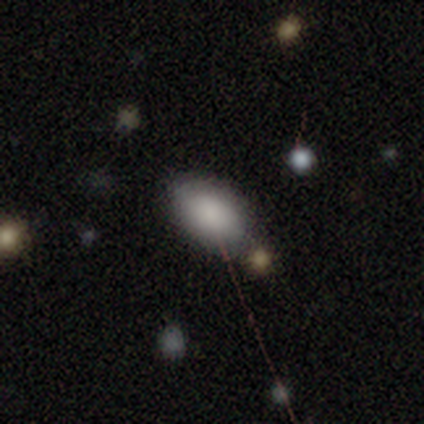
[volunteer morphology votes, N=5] A smooth galaxy with no disk features (80%) that is in between round and cigar-shaped (100%). Merging: none (75%).